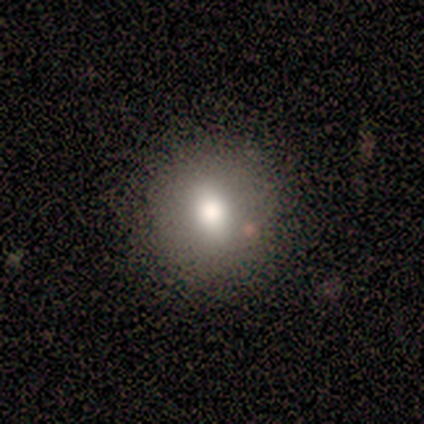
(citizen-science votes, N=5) A smooth galaxy with no disk features (80%) that is in between round and cigar-shaped (75%).

Vote fractions:
- Smooth or featured? smooth: 80% / featured or disk: 20% / star or artifact: 0%
- How rounded? in between: 75% / round: 25% / cigar-shaped: 0%
- Merging? none: 100% / minor disturbance: 0% / major disturbance: 0% / merger: 0%